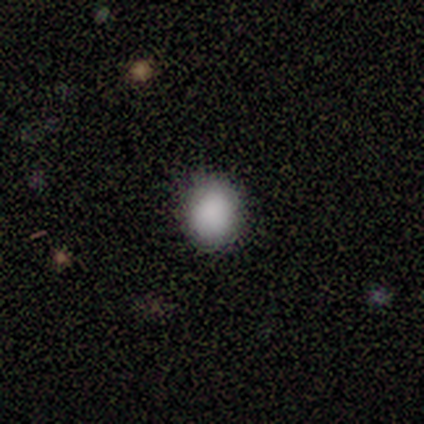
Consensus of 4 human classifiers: This is clearly a smooth galaxy (100%). How rounded: possibly round (50%, tied with in between). Merging: clearly none (100%).